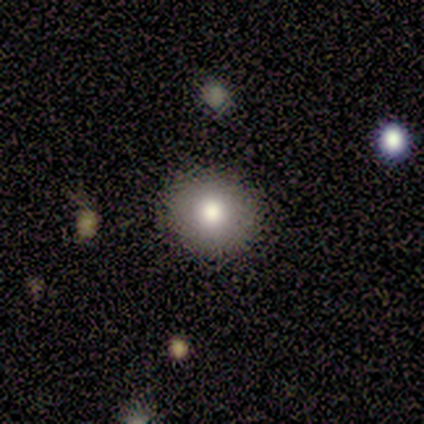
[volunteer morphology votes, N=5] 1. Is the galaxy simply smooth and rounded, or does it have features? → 100% smooth, 0% featured or disk, 0% star or artifact.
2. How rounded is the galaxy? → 80% round, 20% in between, 0% cigar-shaped.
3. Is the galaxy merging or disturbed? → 100% none, 0% minor disturbance, 0% major disturbance, 0% merger.